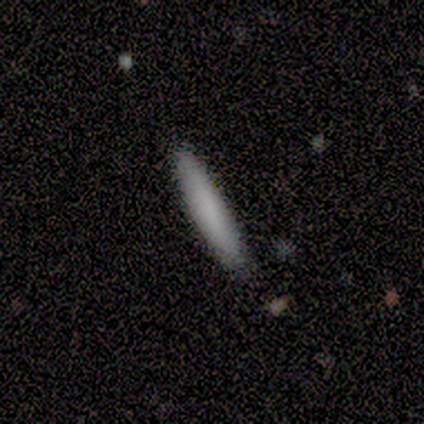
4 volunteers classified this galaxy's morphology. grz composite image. It shows a smooth galaxy with no disk features (100%) that is cigar-shaped (75%). Merging: none (100%).